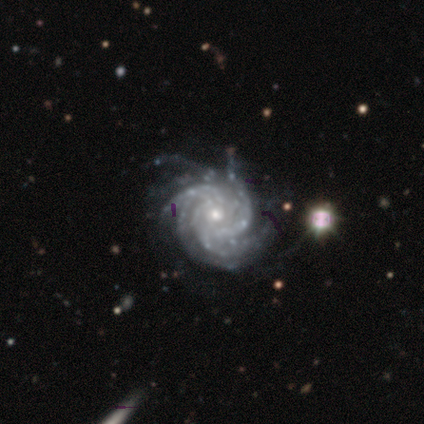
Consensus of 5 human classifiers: smooth-or-featured: featured or disk: 80% | star or artifact: 20% | smooth: 0%
  disk-edge-on: no: 100% | yes: 0%
    bar: strong: 50% | weak: 25% | no: 25%
    has-spiral-arms: yes: 100% | no: 0%
      spiral-winding: tight: 75% | medium: 25% | loose: 0%
      spiral-arm-count: 4: 75% | 3: 25% | 1: 0% | 2: 0% | more than 4: 0% | can't tell: 0%
    bulge-size: small: 75% | moderate: 25% | dominant: 0% | large: 0% | none: 0%
  merging: none: 100% | minor disturbance: 0% | major disturbance: 0% | merger: 0%